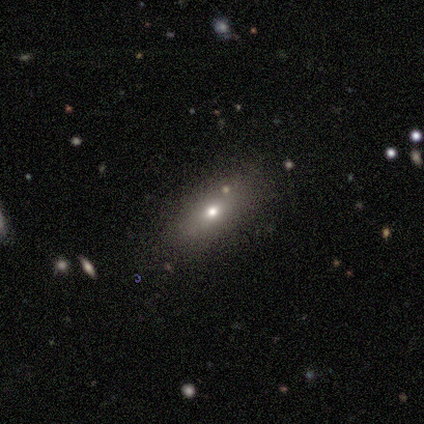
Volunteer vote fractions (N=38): Morphology: type=smooth (63%); roundness=in between (67%); merging=none (81%).